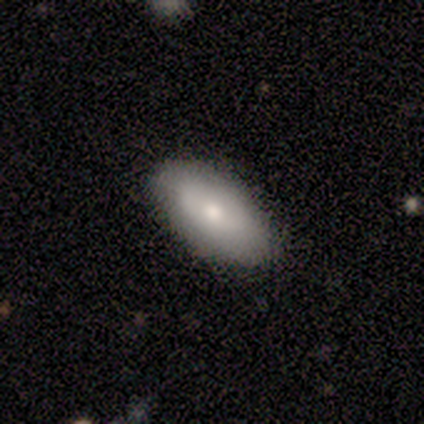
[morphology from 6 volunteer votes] type=smooth (50%, tied with featured or disk); roundness=in between (100%); merging=none (100%).